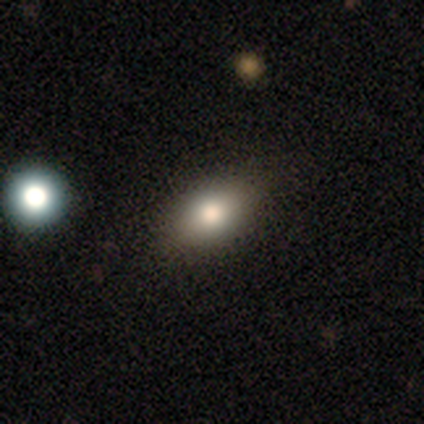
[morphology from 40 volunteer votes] A smooth galaxy with no disk features (75%) that is in between round and cigar-shaped (80%). Merging: none (91%).